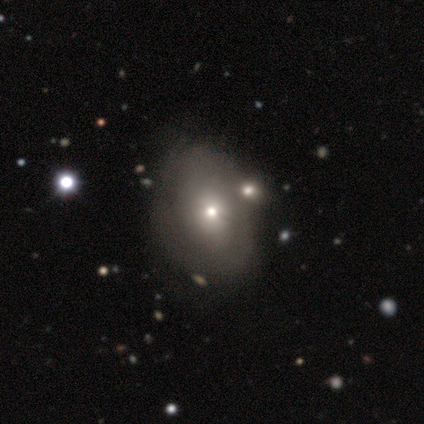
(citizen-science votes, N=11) Volunteers were most divided on "bulge size" (2-way tie): moderate: 50%, small: 50%, dominant: 0%, large: 0%, none: 0%. More confident: edge-on disk — no (100%); bar — no (100%); merging — none (73%); spiral arms — no (67%); smooth or featured — featured or disk (55%).